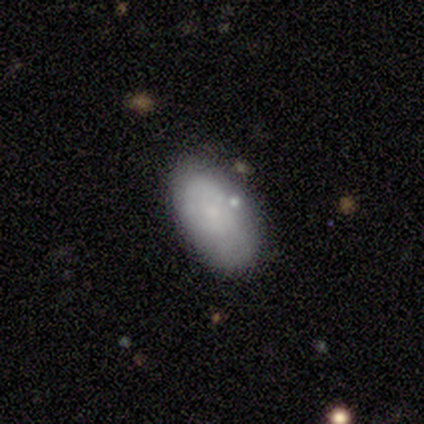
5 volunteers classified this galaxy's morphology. smooth 80%, featured or disk 20%, star or artifact 0%. Down the decision tree: how rounded — in between (100%); merging — none (100%).